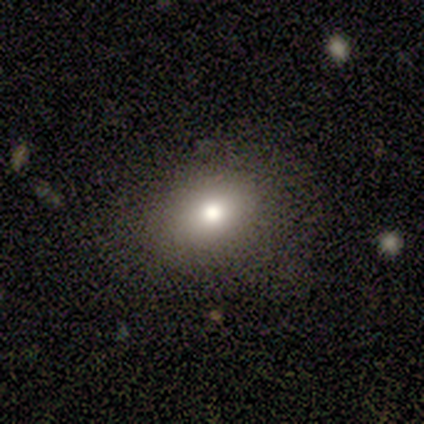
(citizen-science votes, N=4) smooth_or_featured: smooth (p=0.50) [alt: featured or disk p=0.25]
how_rounded: in between (p=1.00)
merging: none (p=1.00)